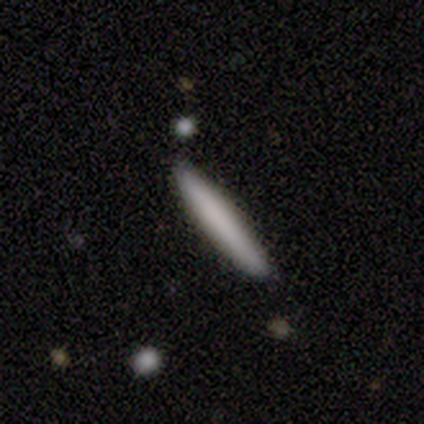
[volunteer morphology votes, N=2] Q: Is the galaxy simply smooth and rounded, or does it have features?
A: smooth — 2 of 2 (100%).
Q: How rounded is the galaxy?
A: cigar-shaped — 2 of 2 (100%).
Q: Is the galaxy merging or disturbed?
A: none — 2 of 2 (100%).